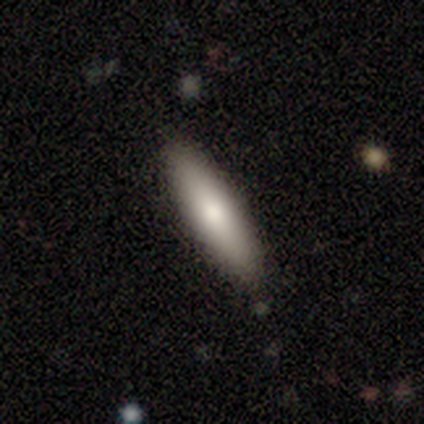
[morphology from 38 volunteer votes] This is clearly a smooth galaxy (84%). How rounded: likely cigar-shaped (72%). Merging: clearly none (84%).